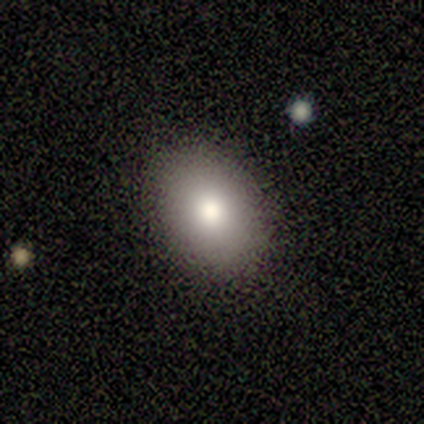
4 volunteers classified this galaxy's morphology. Consensus on every question: smooth or featured — smooth (100%); how rounded — in between (100%); merging — none (100%).